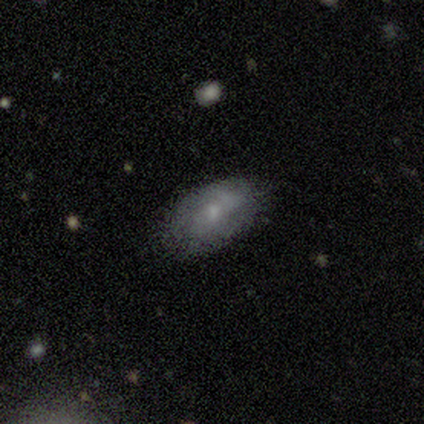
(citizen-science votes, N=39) Volunteers were most divided on "smooth or featured": smooth: 62%, featured or disk: 36%, star or artifact: 3%. More confident: how rounded — in between (92%); merging — none (74%).